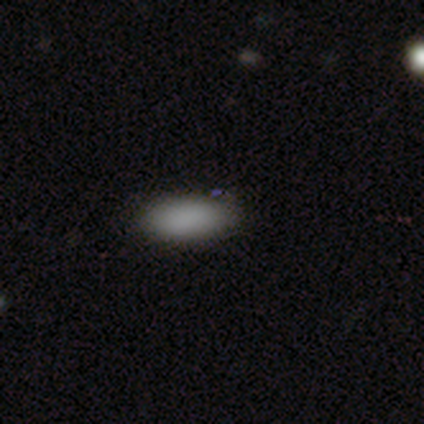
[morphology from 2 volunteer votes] type=smooth (100%); roundness=in between (50%, tied with cigar-shaped); merging=none (50%, tied with minor disturbance).